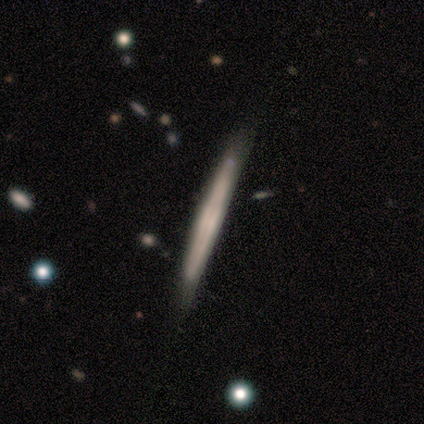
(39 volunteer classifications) A featured or disk galaxy (62%) viewed edge-on (92%) with no central bulge (77%).

Vote fractions:
- Smooth or featured? featured or disk: 62% / smooth: 38% / star or artifact: 0%
- Edge-on disk? yes: 92% / no: 8%
- Edge-on bulge? none: 77% / boxy: 18% / rounded: 5%
- Merging? none: 72% / minor disturbance: 23% / major disturbance: 5% / merger: 0%